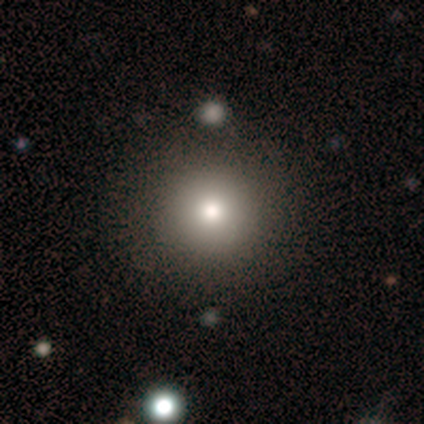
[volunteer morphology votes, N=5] smooth-or-featured: smooth: 60% | featured or disk: 40% | star or artifact: 0%
  how-rounded: round: 67% | in between: 33% | cigar-shaped: 0%
  merging: none: 80% | minor disturbance: 20% | major disturbance: 0% | merger: 0%